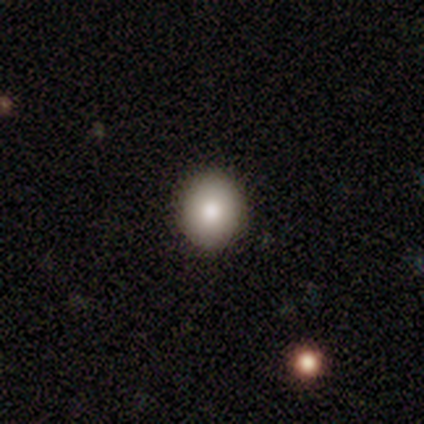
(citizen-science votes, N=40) Smooth or featured?
  - smooth: 80% *
  - featured or disk: 12%
  - star or artifact: 8%
How rounded?
  - round: 72% *
  - in between: 28%
  - cigar-shaped: 0%
Merging?
  - none: 97% *
  - merger: 3%
  - minor disturbance: 0%
  - major disturbance: 0%